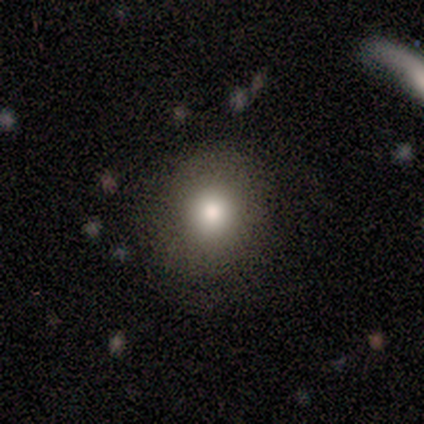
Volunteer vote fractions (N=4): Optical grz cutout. It shows a smooth galaxy with no disk features (50%) that is round (100%). Merging: none (100%).